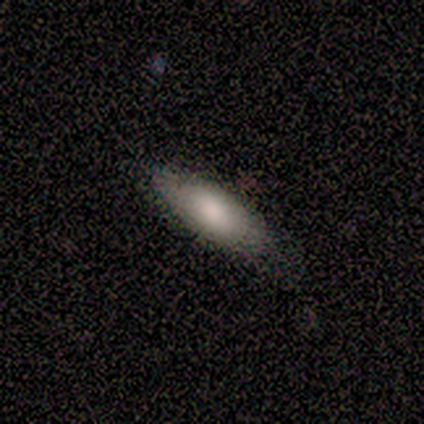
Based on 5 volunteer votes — A smooth galaxy with no disk features (40%, tied with featured or disk) that is in between round and cigar-shaped (50%, tied with cigar-shaped). Merging: none (75%).